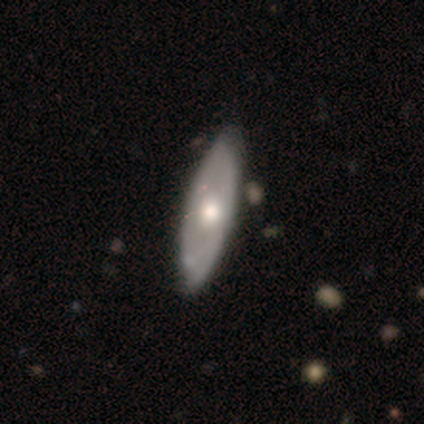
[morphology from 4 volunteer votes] type=featured or disk (100%); edge-on=no (75%); bar=no (100%); spiral arms=yes (67%); winding=tight (100%); arm count=can't tell (100%); bulge=large (33%, tied with moderate and small); merging=none (100%).